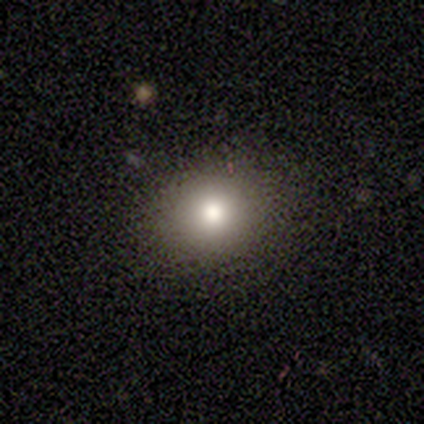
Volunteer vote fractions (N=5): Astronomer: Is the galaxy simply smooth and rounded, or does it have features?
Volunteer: smooth — 60%.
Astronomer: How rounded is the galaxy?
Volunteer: round — 67%.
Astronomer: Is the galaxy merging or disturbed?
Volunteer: none — 75%.